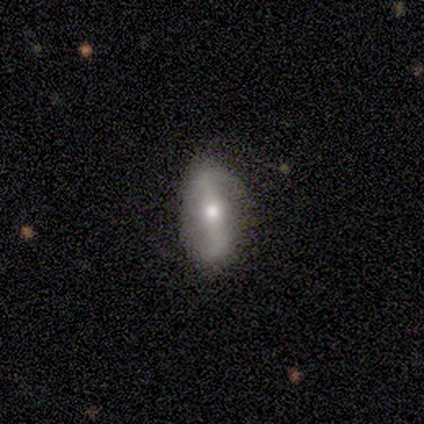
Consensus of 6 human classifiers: A smooth galaxy with no disk features (50%) that is in between round and cigar-shaped (100%). Merging: none (80%).